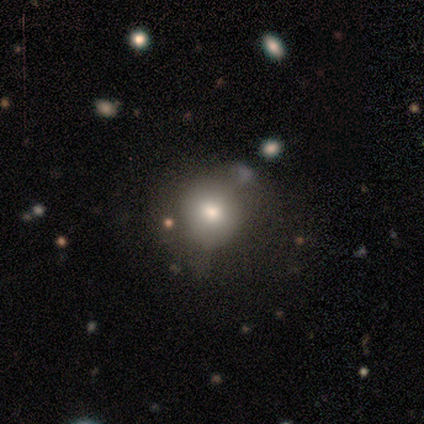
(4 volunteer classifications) smooth-or-featured: smooth: 75% | featured or disk: 25% | star or artifact: 0%
  how-rounded: round: 100% | in between: 0% | cigar-shaped: 0%
  merging: none: 50% | minor disturbance: 25% | major disturbance: 25% | merger: 0%